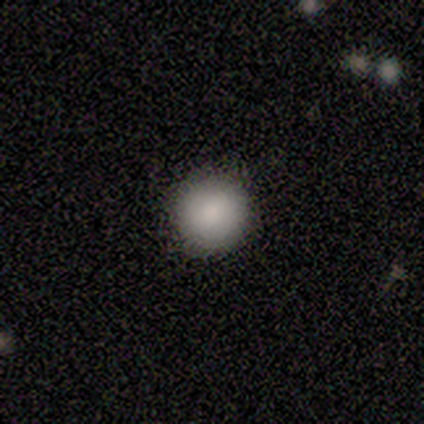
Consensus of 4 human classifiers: smooth-or-featured: smooth: 100% | featured or disk: 0% | star or artifact: 0%
  how-rounded: round: 100% | in between: 0% | cigar-shaped: 0%
  merging: none: 100% | minor disturbance: 0% | major disturbance: 0% | merger: 0%